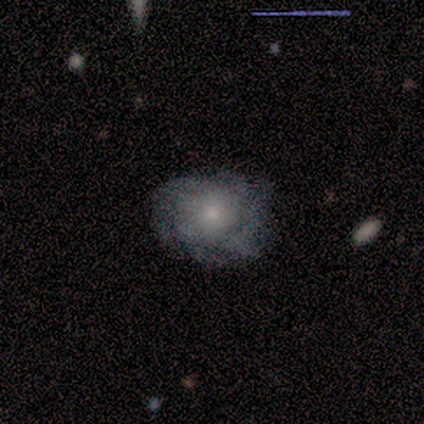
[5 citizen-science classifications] This is clearly a featured or disk galaxy (100%). It is clearly not viewed edge-on (100%). Bar: clearly no (80%). Spiral arm pattern: likely no (60%). Central bulge: likely small (60%). Merging: clearly none (100%).